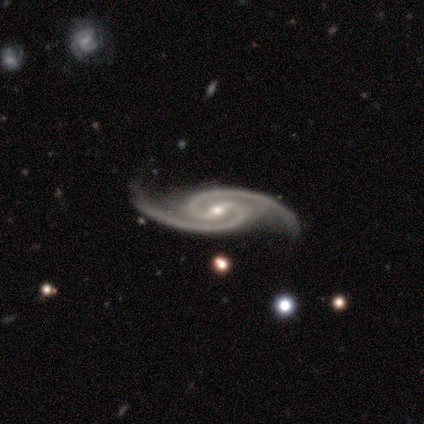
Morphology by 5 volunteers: Smooth or featured? featured or disk (100%)
Edge-on disk? no (100%)
Bar? no (60%)
Spiral arms? yes (100%)
Spiral winding? tight (60%)
Spiral arm count? 2 (100%)
Bulge size? small (60%)
Merging? none (100%)